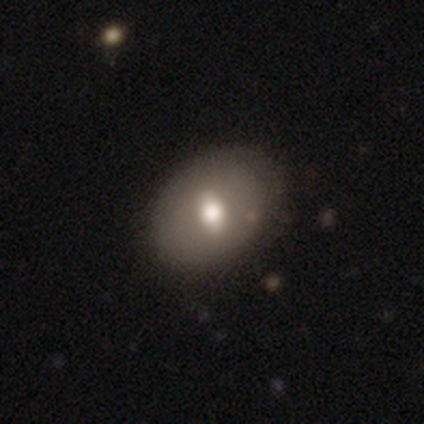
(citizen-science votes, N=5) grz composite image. It shows a smooth galaxy with no disk features (60%) that is in between round and cigar-shaped (100%). Merging: none (100%).